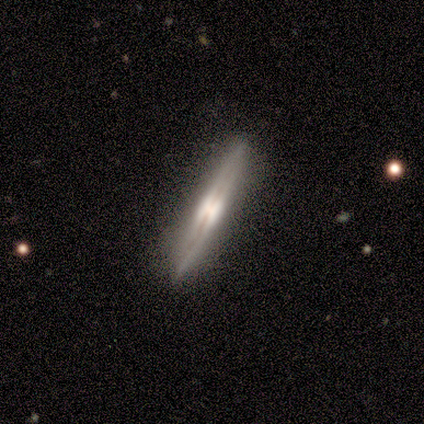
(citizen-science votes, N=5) A featured or disk galaxy (100%) viewed edge-on (100%) with a rounded central bulge (80%). Merging: none (100%).